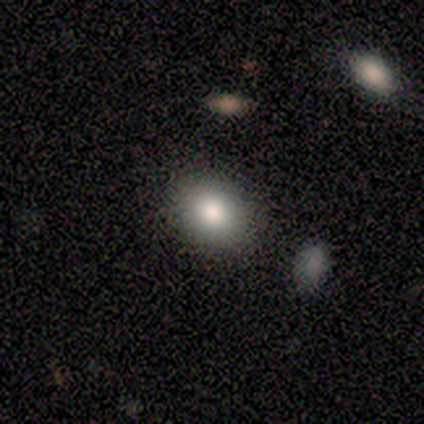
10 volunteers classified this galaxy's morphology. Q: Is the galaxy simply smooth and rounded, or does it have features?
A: smooth — 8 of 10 (80%).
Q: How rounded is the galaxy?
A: in between — 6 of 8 (75%).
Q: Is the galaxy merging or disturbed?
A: none — 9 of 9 (100%).